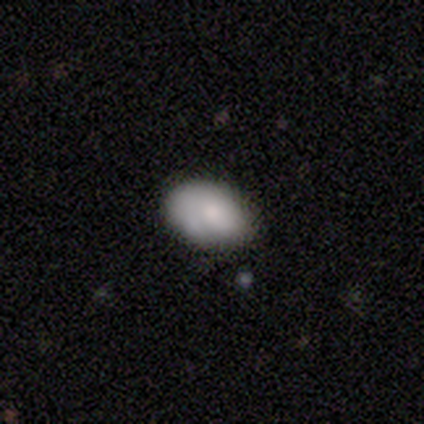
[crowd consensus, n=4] Q: Smooth or featured?
A: smooth (50%); tied with: featured or disk (50%)
Q: How rounded?
A: in between (100%)
Q: Merging?
A: none (75%); runner-up: major disturbance (25%)